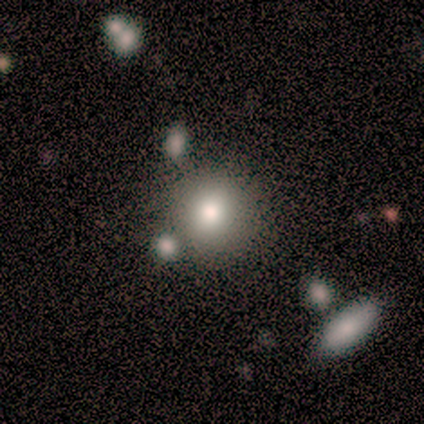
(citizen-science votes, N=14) A smooth galaxy with no disk features (79%) that is round (91%). Merging: none (69%).